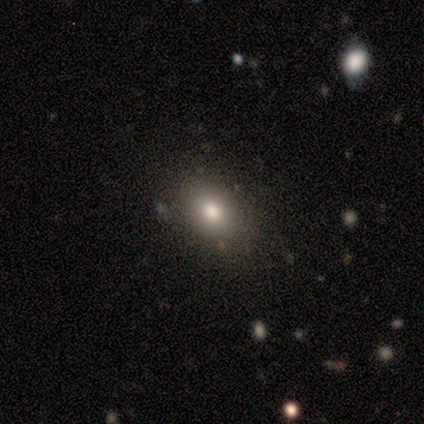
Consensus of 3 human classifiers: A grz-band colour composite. It shows a smooth galaxy with no disk features (33%, tied with featured or disk and star or artifact) that is round (100%). Merging: none (100%).